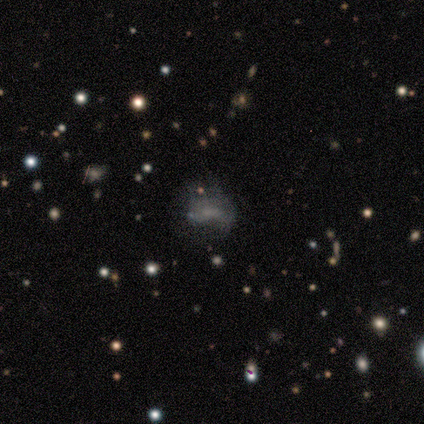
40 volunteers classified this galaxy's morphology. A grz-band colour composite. It shows a featured or disk galaxy (48%) with no bar (63%), no spiral arms (95%) and no central bulge (74%). Merging: none (32%).